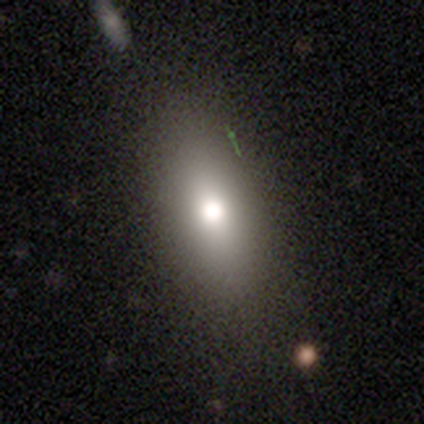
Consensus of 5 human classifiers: A smooth galaxy with no disk features (80%) that is in between round and cigar-shaped (75%).

Vote fractions:
- Smooth or featured? smooth: 80% / featured or disk: 20% / star or artifact: 0%
- How rounded? in between: 75% / cigar-shaped: 25% / round: 0%
- Merging? none: 80% / minor disturbance: 20% / major disturbance: 0% / merger: 0%